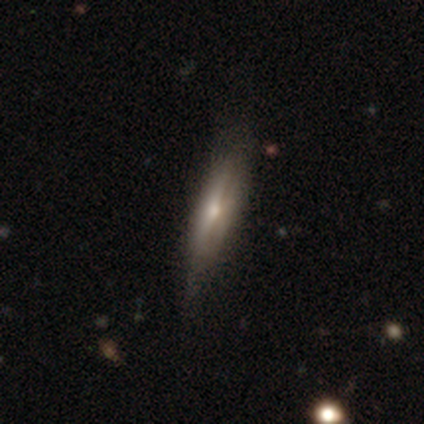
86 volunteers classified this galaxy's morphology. A featured or disk galaxy (58%) viewed edge-on (78%) with a rounded central bulge (74%).

Vote fractions:
- Smooth or featured? featured or disk: 58% / smooth: 35% / star or artifact: 7%
- Edge-on disk? yes: 78% / no: 22%
- Edge-on bulge? rounded: 74% / none: 18% / boxy: 8%
- Merging? none: 70% / minor disturbance: 26% / major disturbance: 2% / merger: 1%